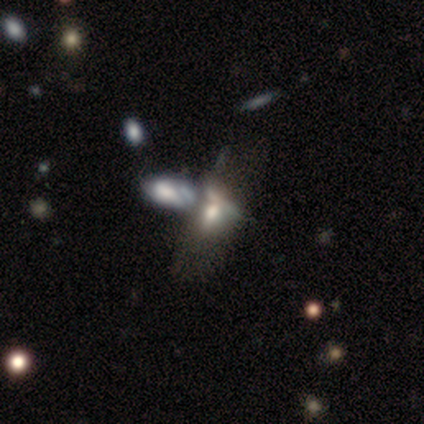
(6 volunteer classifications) A featured or disk galaxy (50%) with no bar (100%), no spiral arms (100%) and a moderate central bulge (67%).

Vote fractions:
- Smooth or featured? featured or disk: 50% / smooth: 33% / star or artifact: 17%
- Edge-on disk? no: 100% / yes: 0%
- Bar? no: 100% / strong: 0% / weak: 0%
- Spiral arms? no: 100% / yes: 0%
- Bulge size? moderate: 67% / dominant: 33% / large: 0% / small: 0% / none: 0%
- Merging? merger: 100% / none: 0% / minor disturbance: 0% / major disturbance: 0%